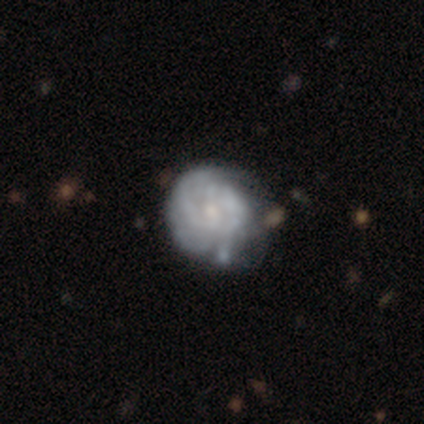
This is likely a featured or disk galaxy (79%). It is clearly not viewed edge-on (97%). Bar: clearly no (90%). Spiral arm pattern: likely yes (69%). Spiral arm count: clearly can't tell (80%). Spiral winding: likely tight (60%). Central bulge: likely small (62%). Merging: marginally none (27%).